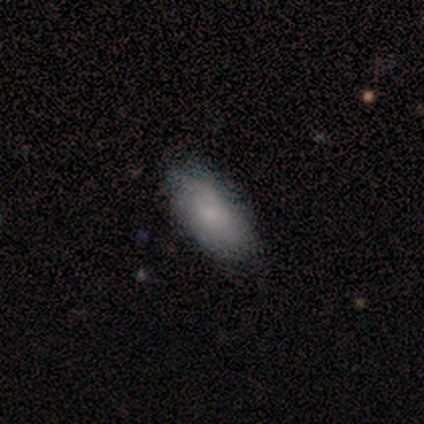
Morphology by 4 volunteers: Q: Smooth or featured?
A: smooth (100%)
Q: How rounded?
A: in between (100%)
Q: Merging?
A: none (75%); runner-up: minor disturbance (25%)